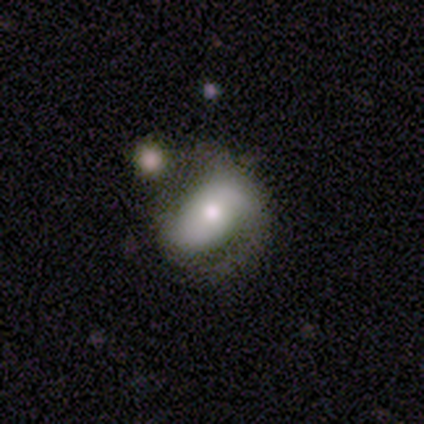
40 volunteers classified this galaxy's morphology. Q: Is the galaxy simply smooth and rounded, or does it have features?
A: featured or disk — 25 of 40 (62%).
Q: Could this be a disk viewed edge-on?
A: no — 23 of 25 (92%).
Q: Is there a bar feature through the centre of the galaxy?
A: no — 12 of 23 (52%).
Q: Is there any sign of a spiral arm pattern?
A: yes — 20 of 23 (87%).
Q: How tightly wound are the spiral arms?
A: medium — 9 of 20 (45%).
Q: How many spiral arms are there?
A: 2 — 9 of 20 (45%).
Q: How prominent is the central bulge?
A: moderate — 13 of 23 (57%).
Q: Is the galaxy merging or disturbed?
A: none — 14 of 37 (38%).